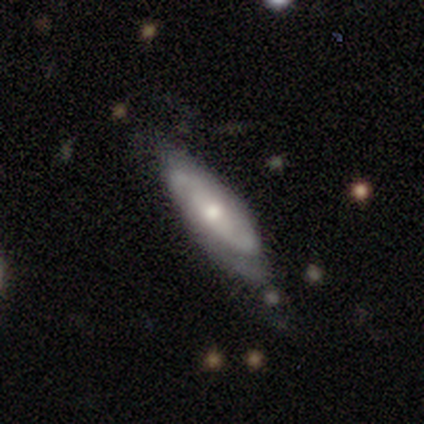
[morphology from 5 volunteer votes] type=featured or disk (60%); edge-on=no (67%); bar=no (100%); spiral arms=yes (100%); winding=loose (100%); arm count=2 (100%); bulge=moderate (100%); merging=none (60%).